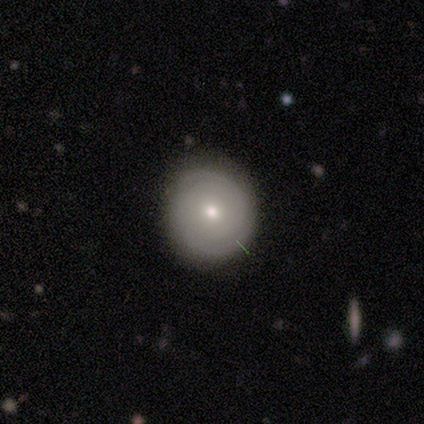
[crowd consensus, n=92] featured or disk 52%, smooth 40%, star or artifact 8%. Down the decision tree: edge-on disk — no (98%); bar — no (87%); spiral arms — yes (81%); spiral arm count — can't tell (47%); spiral winding — tight (92%); bulge size — small (64%); merging — none (87%).